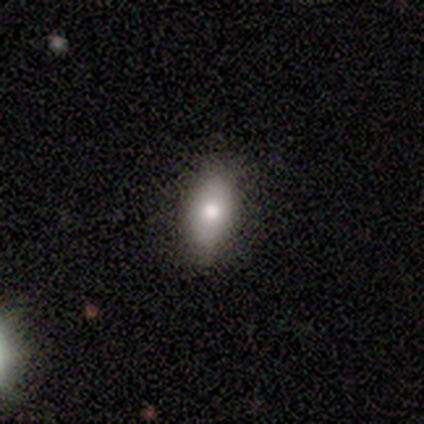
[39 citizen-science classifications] Smooth or featured? smooth (74%)
How rounded? in between (83%)
Merging? none (74%)